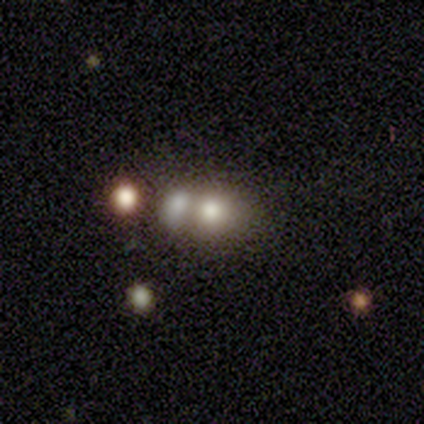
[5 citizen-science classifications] This is clearly a smooth galaxy (80%). How rounded: likely round (75%). Merging: possibly none (50%, tied with merger).